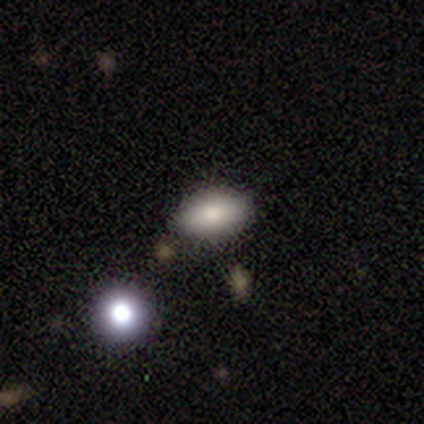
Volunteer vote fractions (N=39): Q: Smooth or featured?
A: smooth (82%); runner-up: star or artifact (10%)
Q: How rounded?
A: in between (91%); runner-up: round (9%)
Q: Merging?
A: none (83%); runner-up: minor disturbance (14%)